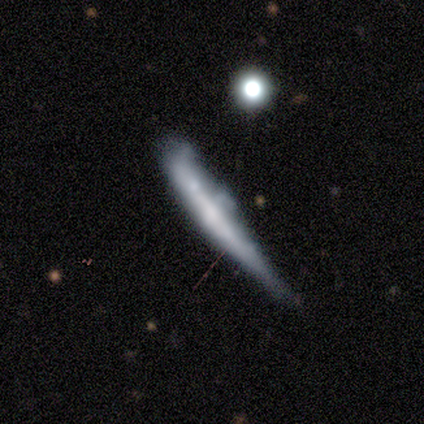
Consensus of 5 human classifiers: smooth-or-featured: featured or disk: 60% | smooth: 40% | star or artifact: 0%
  disk-edge-on: yes: 100% | no: 0%
    edge-on-bulge: none: 100% | boxy: 0% | rounded: 0%
  merging: minor disturbance: 60% | none: 20% | major disturbance: 20% | merger: 0%